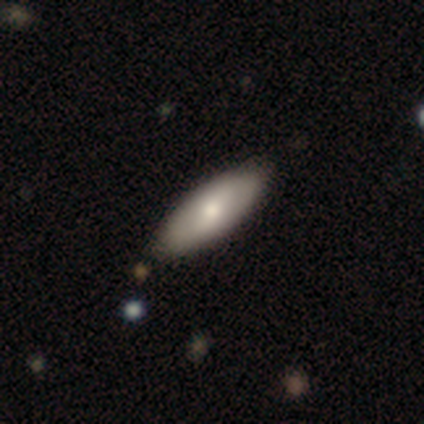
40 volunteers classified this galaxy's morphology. type=smooth (75%); roundness=in between (77%); merging=none (68%).